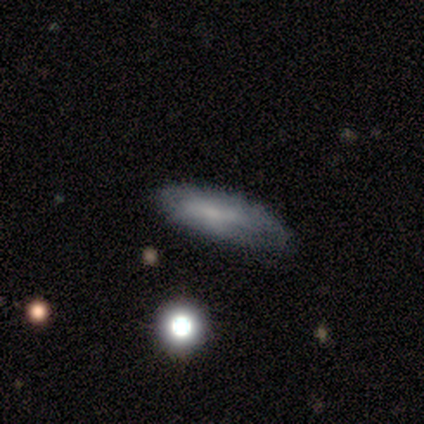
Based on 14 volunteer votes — smooth-or-featured: smooth: 79% | featured or disk: 21% | star or artifact: 0%
  how-rounded: cigar-shaped: 55% | in between: 45% | round: 0%
  merging: none: 79% | minor disturbance: 21% | major disturbance: 0% | merger: 0%